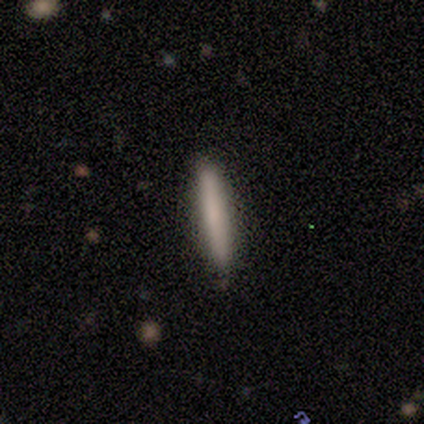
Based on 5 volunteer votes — Overall: smooth (100%). How rounded: cigar-shaped (100%). Merging: none (100%).